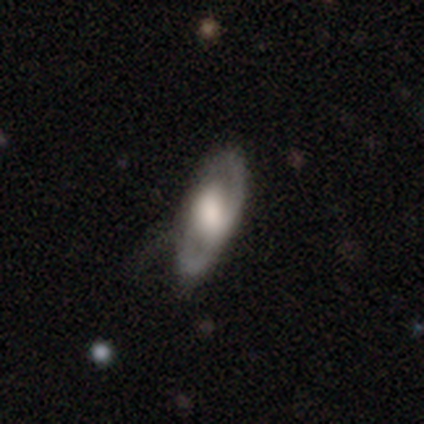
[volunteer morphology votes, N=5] Volunteers were most divided on "edge-on disk": yes: 75%, no: 25%. More confident: edge-on bulge — rounded (100%); smooth or featured — featured or disk (80%); merging — none (80%).